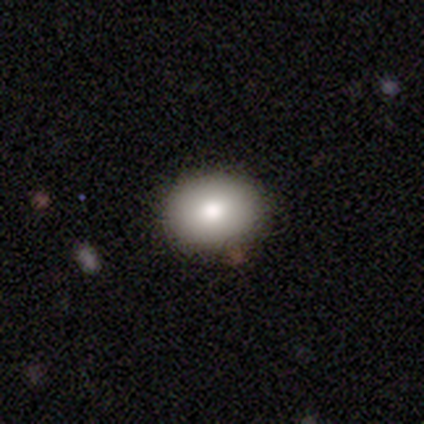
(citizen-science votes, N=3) Q: Smooth or featured?
A: smooth (33%); tied with: featured or disk (33%); star or artifact (33%)
Q: How rounded?
A: in between (100%)
Q: Merging?
A: none (50%); tied with: minor disturbance (50%)